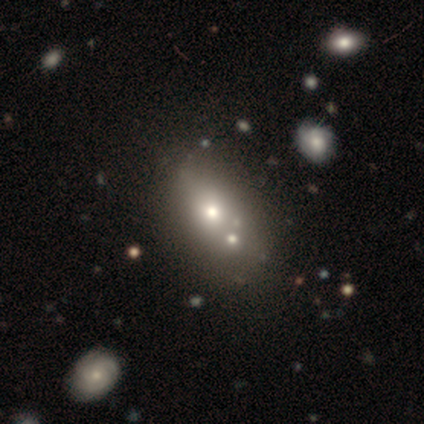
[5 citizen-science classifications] Q: Smooth or featured?
A: smooth (60%); runner-up: featured or disk (20%)
Q: How rounded?
A: in between (67%); runner-up: round (33%)
Q: Merging?
A: none (75%); runner-up: merger (25%)